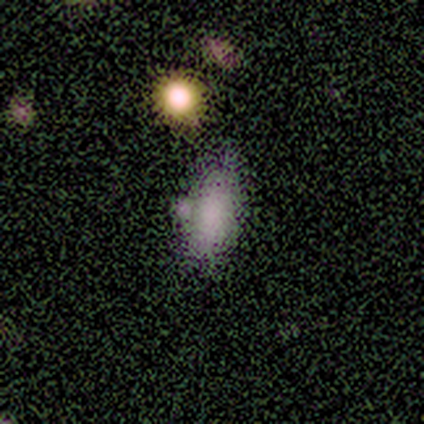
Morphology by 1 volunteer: Smooth or featured?
  - smooth: 100% *
  - featured or disk: 0%
  - star or artifact: 0%
How rounded?
  - in between: 100% *
  - round: 0%
  - cigar-shaped: 0%
Merging?
  - none: 100% *
  - minor disturbance: 0%
  - major disturbance: 0%
  - merger: 0%